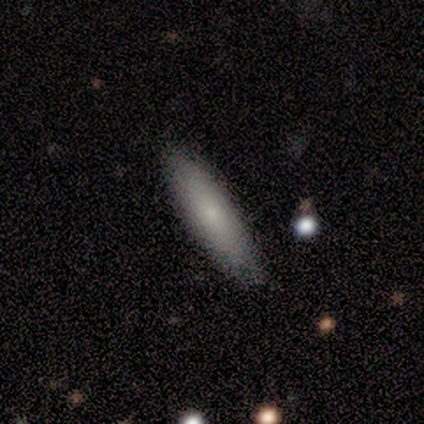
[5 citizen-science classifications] This is clearly a smooth galaxy (100%). How rounded: likely cigar-shaped (60%). Merging: clearly none (80%).